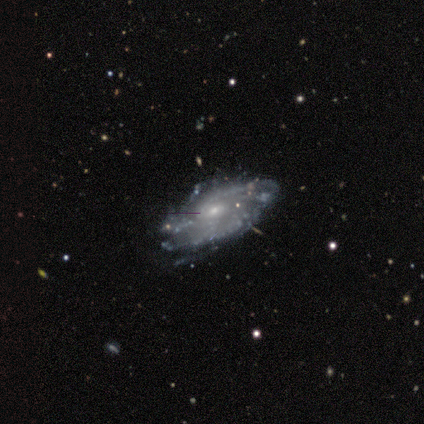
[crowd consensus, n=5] Smooth or featured?
  - featured or disk: 100% *
  - smooth: 0%
  - star or artifact: 0%
Edge-on disk?
  - no: 100% *
  - yes: 0%
Bar?
  - no: 100% *
  - strong: 0%
  - weak: 0%
Spiral arms?
  - yes: 100% *
  - no: 0%
Spiral winding?
  - tight: 100% *
  - medium: 0%
  - loose: 0%
Spiral arm count?
  - 3: 40% * (tied)
  - 4: 40% * (tied)
  - can't tell: 20%
  - 1: 0%
  - 2: 0%
  - more than 4: 0%
Bulge size?
  - small: 80% *
  - moderate: 20%
  - dominant: 0%
  - large: 0%
  - none: 0%
Merging?
  - none: 80% *
  - minor disturbance: 20%
  - major disturbance: 0%
  - merger: 0%